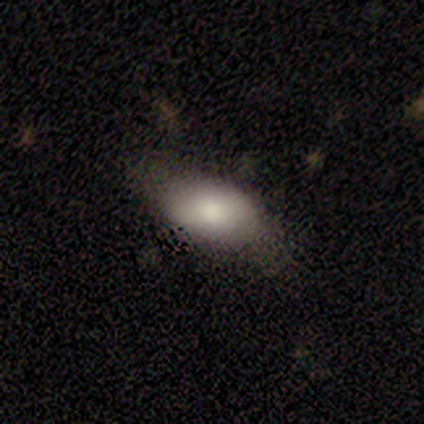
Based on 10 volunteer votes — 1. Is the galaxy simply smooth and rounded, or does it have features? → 90% smooth, 10% star or artifact, 0% featured or disk.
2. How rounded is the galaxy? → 100% in between, 0% round, 0% cigar-shaped.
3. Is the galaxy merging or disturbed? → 67% none, 22% minor disturbance, 11% major disturbance, 0% merger.